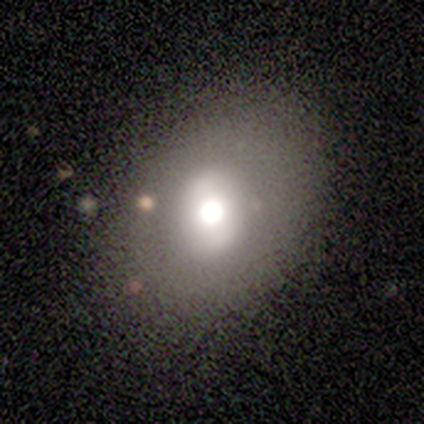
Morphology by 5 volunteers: type=smooth (80%); roundness=round (50%); merging=none (100%).